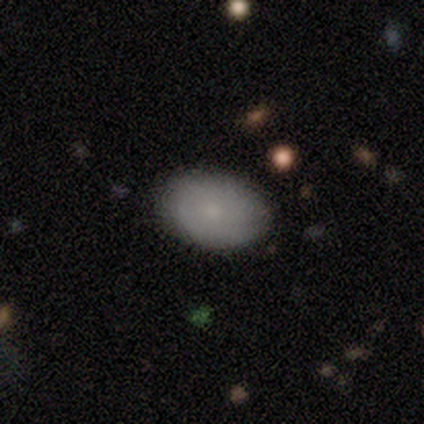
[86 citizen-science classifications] smooth-or-featured: smooth: 81% | featured or disk: 12% | star or artifact: 7%
  how-rounded: in between: 84% | round: 14% | cigar-shaped: 1%
  merging: none: 84% | minor disturbance: 12% | merger: 2% | major disturbance: 1%